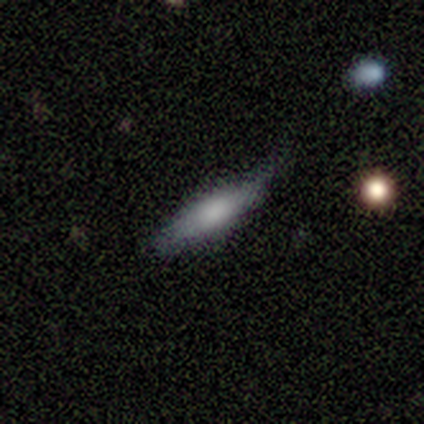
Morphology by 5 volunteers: This appears to be a featured or disk galaxy (60%) viewed edge-on (67%) with a rounded central bulge (100%). Merging: none (60%).